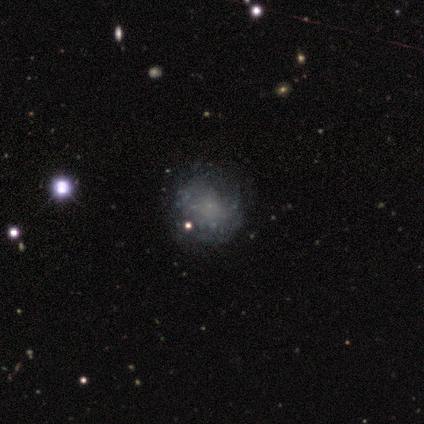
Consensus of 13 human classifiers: A featured or disk galaxy (54%) with no bar (100%), no spiral arms (86%) and a small central bulge (71%). Merging: none (91%).